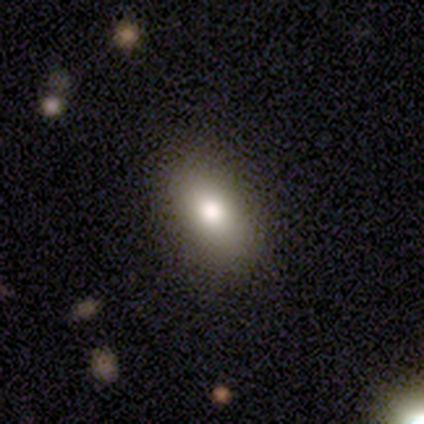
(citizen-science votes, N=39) Overall: smooth (79%). How rounded: in between (81%). Merging: none (83%).